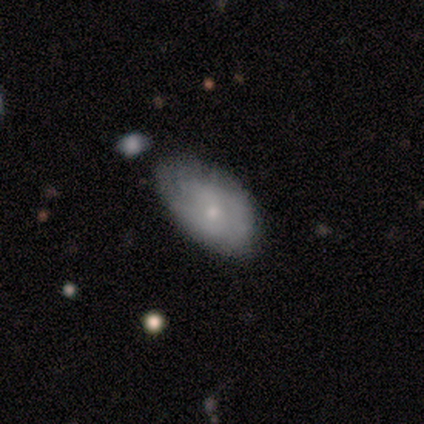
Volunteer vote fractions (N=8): Smooth or featured: smooth — 75% (featured or disk — 25%)
How rounded: in between — 100%
Merging: none — 75% (minor disturbance — 25%)